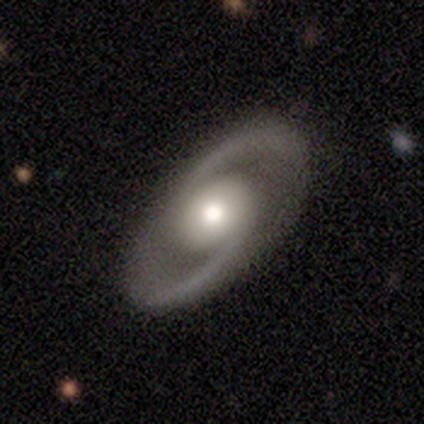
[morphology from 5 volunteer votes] featured or disk 80%, smooth 20%, star or artifact 0%. Down the decision tree: edge-on disk — no (100%); bar — strong (50%, tied with no); spiral arms — yes (100%); spiral arm count — 2 (100%); spiral winding — tight (50%, tied with medium); bulge size — moderate (75%); merging — none (100%).